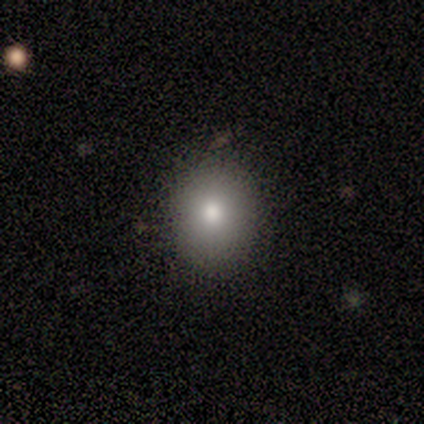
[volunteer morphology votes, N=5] smooth_or_featured: smooth (p=0.60) [alt: featured or disk p=0.20]
how_rounded: round (p=1.00)
merging: none (p=1.00)